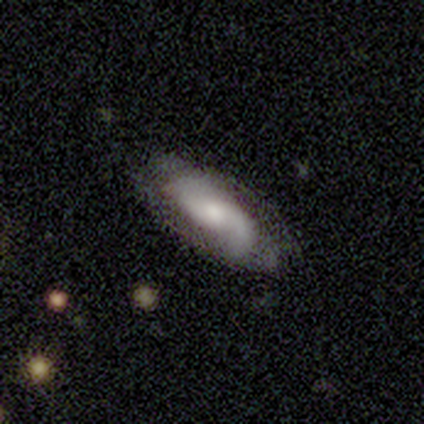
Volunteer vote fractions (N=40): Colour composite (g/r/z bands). It shows a featured or disk galaxy (75%) with no bar (62%), 2 (86%) loose (50%) spiral arms (97%) and a moderate central bulge (45%). Merging: none (64%).